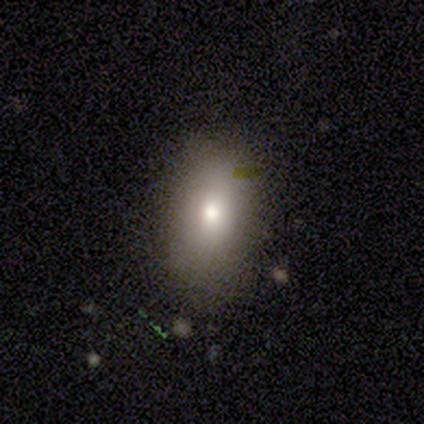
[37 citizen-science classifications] A smooth galaxy with no disk features (92%) that is in between round and cigar-shaped (94%). Merging: none (86%).